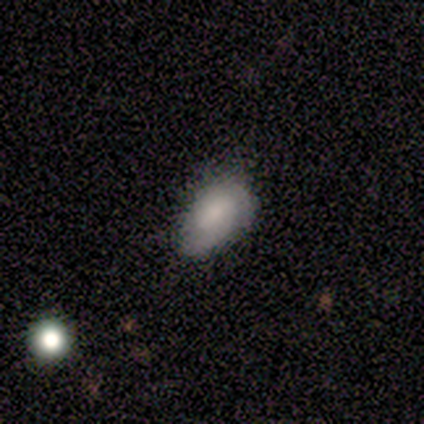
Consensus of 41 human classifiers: This is likely a smooth galaxy (68%). How rounded: clearly in between (93%). Merging: marginally none (42%).